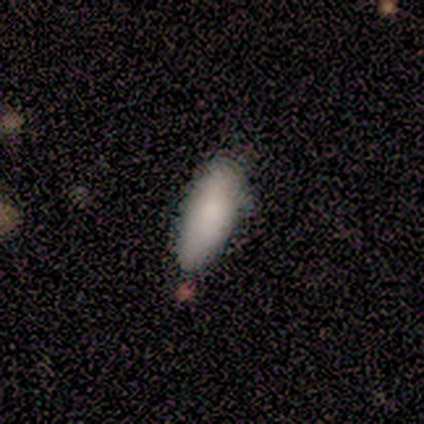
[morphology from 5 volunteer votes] Smooth or featured: smooth — 100%
How rounded: cigar-shaped — 80% (in between — 20%)
Merging: none — 60% (minor disturbance — 20%)